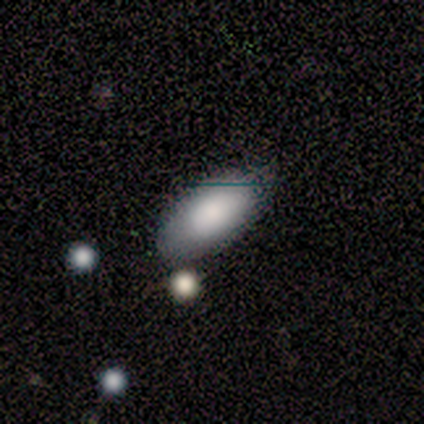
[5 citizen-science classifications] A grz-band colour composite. It shows a smooth galaxy with no disk features (100%) that is in between round and cigar-shaped (100%). Merging: none (80%).